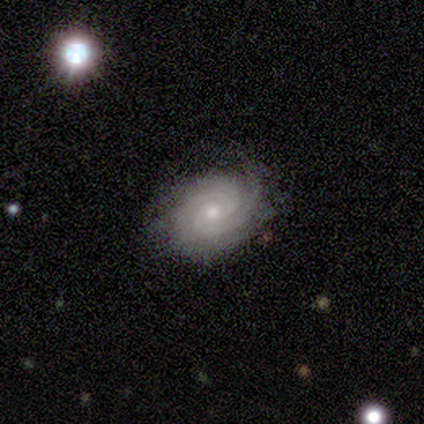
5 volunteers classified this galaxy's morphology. Volunteers were most divided on "merging": major disturbance: 50%, none: 25%, minor disturbance: 25%, merger: 0%. More confident: edge-on disk — no (100%); spiral arms — yes (100%); bar — no (67%); spiral winding — tight (67%); spiral arm count — 3 (67%); bulge size — small (67%); smooth or featured — featured or disk (60%).